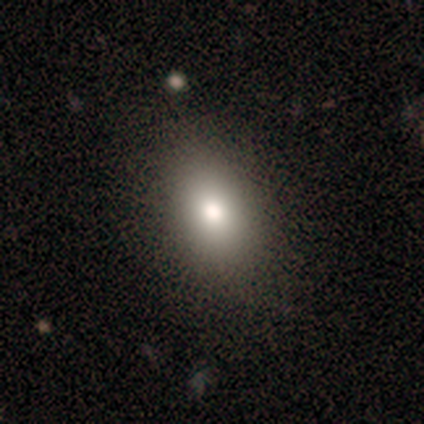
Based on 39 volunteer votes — smooth-or-featured: smooth: 77% | star or artifact: 15% | featured or disk: 8%
  how-rounded: in between: 83% | round: 13% | cigar-shaped: 3%
  merging: none: 94% | minor disturbance: 6% | major disturbance: 0% | merger: 0%